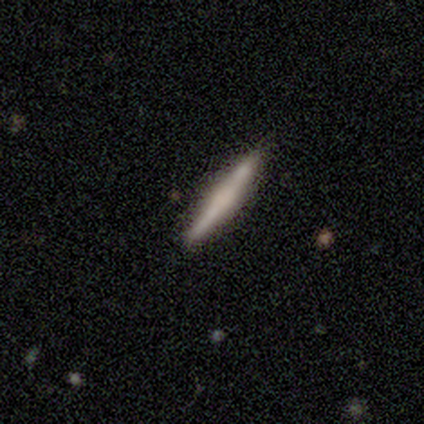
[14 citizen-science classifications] featured or disk 64%, smooth 36%, star or artifact 0%. Down the decision tree: edge-on disk — yes (100%); edge-on bulge — none (44%); merging — none (79%).